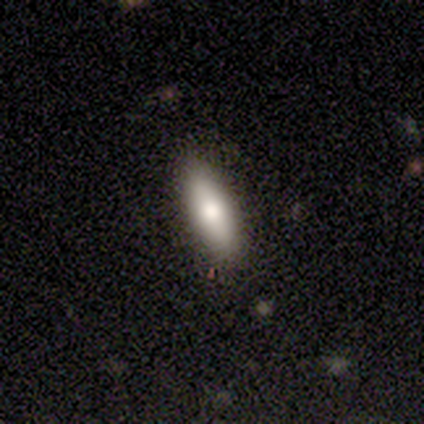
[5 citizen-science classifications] Smooth or featured?
  - smooth: 60% *
  - featured or disk: 40%
  - star or artifact: 0%
How rounded?
  - cigar-shaped: 67% *
  - round: 33%
  - in between: 0%
Merging?
  - none: 80% *
  - minor disturbance: 20%
  - major disturbance: 0%
  - merger: 0%